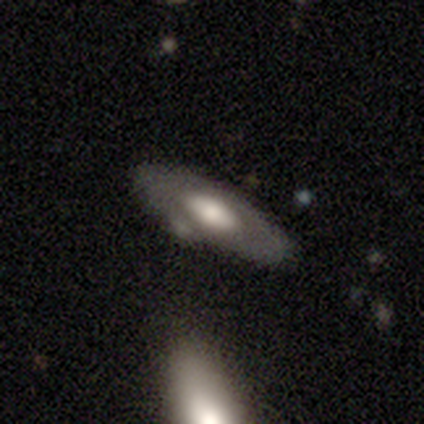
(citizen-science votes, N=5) featured or disk 100%, smooth 0%, star or artifact 0%. Down the decision tree: edge-on disk — yes (60%); edge-on bulge — rounded (100%); merging — none (100%).